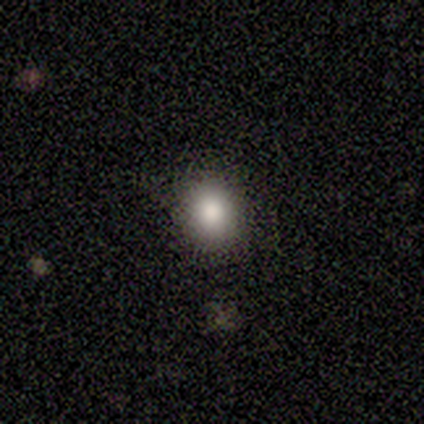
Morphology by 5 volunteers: Smooth or featured: smooth — 80% (featured or disk — 20%)
How rounded: round — 50% (tied with in between — 50%)
Merging: none — 80% (minor disturbance — 20%)